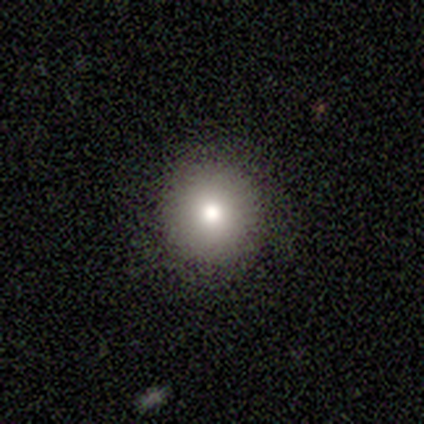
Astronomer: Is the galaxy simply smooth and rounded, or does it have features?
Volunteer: smooth — 100%.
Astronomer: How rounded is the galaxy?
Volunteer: round — 100%.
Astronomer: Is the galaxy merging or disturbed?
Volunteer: none — 100%.